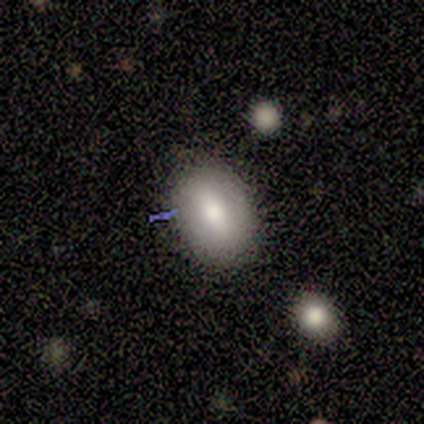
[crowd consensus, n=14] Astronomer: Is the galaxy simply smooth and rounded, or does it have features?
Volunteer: smooth — 79%.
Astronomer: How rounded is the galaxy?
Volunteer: in between — 100%.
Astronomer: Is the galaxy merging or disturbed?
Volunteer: none — 83%.